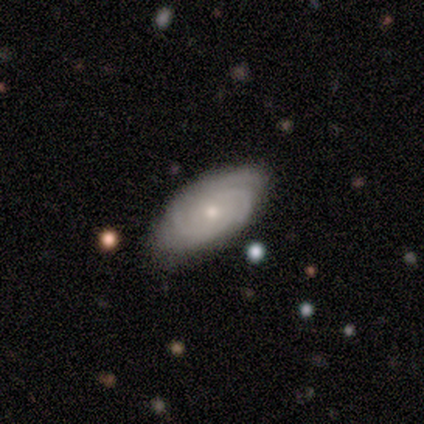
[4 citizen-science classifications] smooth-or-featured: featured or disk: 75% | smooth: 25% | star or artifact: 0%
  disk-edge-on: no: 100% | yes: 0%
    bar: no: 67% | weak: 33% | strong: 0%
    has-spiral-arms: yes: 100% | no: 0%
      spiral-winding: tight: 100% | medium: 0% | loose: 0%
      spiral-arm-count: 3: 67% | can't tell: 33% | 1: 0% | 2: 0% | 4: 0% | more than 4: 0%
    bulge-size: moderate: 67% | small: 33% | dominant: 0% | large: 0% | none: 0%
  merging: none: 100% | minor disturbance: 0% | major disturbance: 0% | merger: 0%